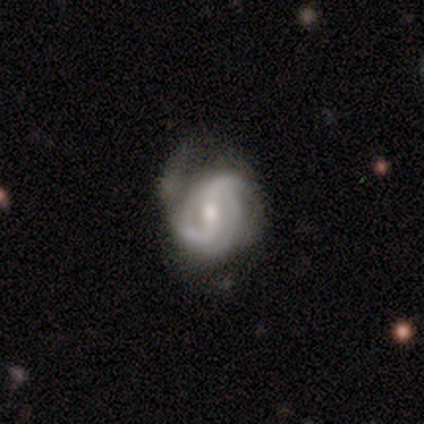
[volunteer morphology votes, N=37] Smooth or featured? featured or disk (92%)
Edge-on disk? no (97%)
Bar? weak (42%)
Spiral arms? yes (100%)
Spiral winding? loose (45%)
Spiral arm count? 2 (55%)
Bulge size? moderate (58%)
Merging? none (50%)